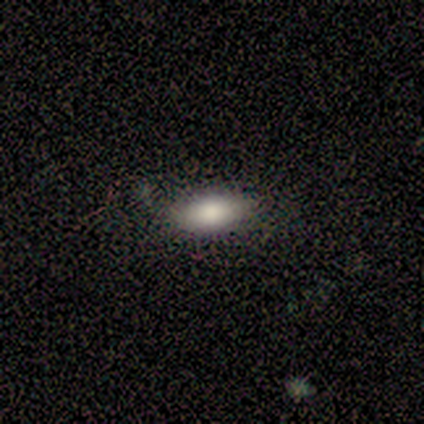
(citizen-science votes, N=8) Volunteers were most divided on "smooth or featured": smooth: 75%, featured or disk: 25%, star or artifact: 0%. More confident: how rounded — in between (83%); merging — none (75%).